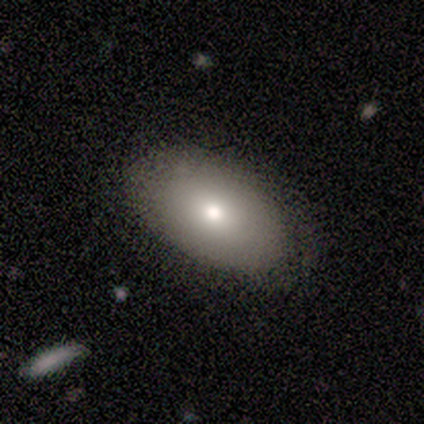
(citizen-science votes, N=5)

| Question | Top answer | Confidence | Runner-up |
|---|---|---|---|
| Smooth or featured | smooth | 60% | featured or disk (40%) |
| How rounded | in between | 67% | round (33%) |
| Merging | none | 100% | — |